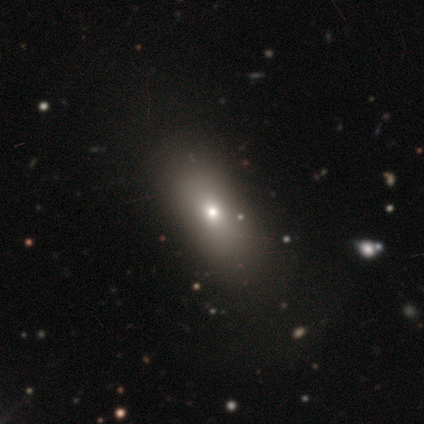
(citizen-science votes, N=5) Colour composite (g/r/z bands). It shows a smooth galaxy with no disk features (100%) that is in between round and cigar-shaped (80%). Merging: none (80%).